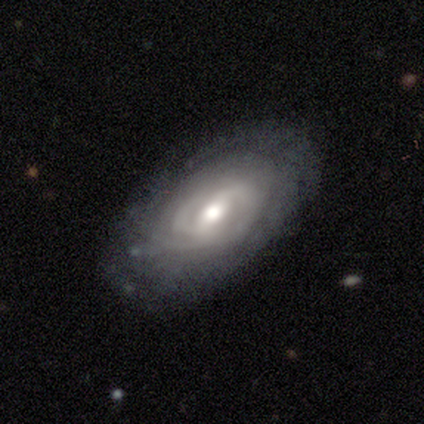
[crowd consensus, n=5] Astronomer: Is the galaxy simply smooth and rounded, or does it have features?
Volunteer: featured or disk — 100%.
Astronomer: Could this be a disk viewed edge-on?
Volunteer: no — 100%.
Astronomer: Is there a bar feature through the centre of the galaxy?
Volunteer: weak — 100%.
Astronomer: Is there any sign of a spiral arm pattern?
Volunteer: yes — 100%.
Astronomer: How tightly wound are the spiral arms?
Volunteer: medium — 60% (runner-up: tight, 40%).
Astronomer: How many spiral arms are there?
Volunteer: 2 — 40%, tied with can't tell at 40%.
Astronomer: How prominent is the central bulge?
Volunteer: moderate — 60%.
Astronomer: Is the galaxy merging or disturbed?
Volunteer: none — 80%.